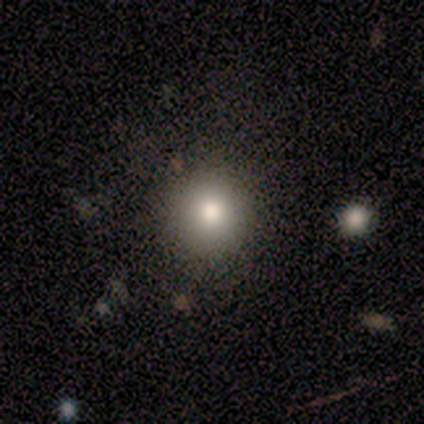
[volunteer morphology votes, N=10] Smooth or featured?
  - smooth: 90% *
  - star or artifact: 10%
  - featured or disk: 0%
How rounded?
  - round: 100% *
  - in between: 0%
  - cigar-shaped: 0%
Merging?
  - none: 100% *
  - minor disturbance: 0%
  - major disturbance: 0%
  - merger: 0%